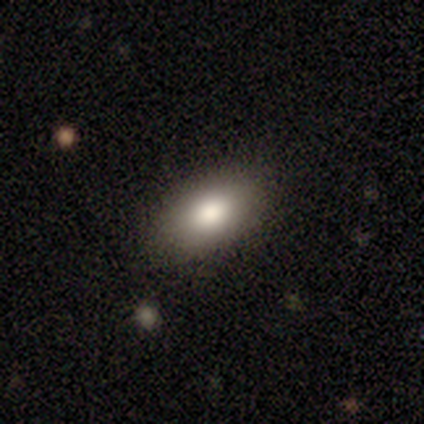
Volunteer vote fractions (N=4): This appears to be a smooth galaxy with no disk features (50%, tied with featured or disk) that is in between round and cigar-shaped (100%). Merging: none (75%).